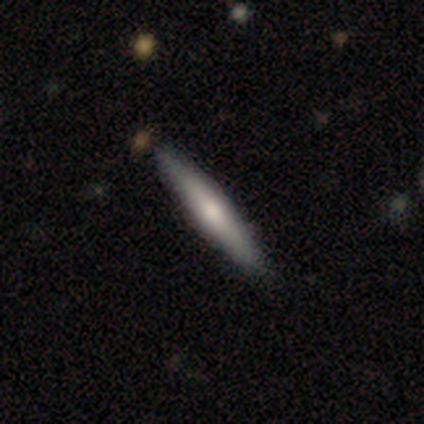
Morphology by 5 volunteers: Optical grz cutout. It shows a featured or disk galaxy (60%) viewed edge-on (67%) with no central bulge (100%). Merging: none (80%).